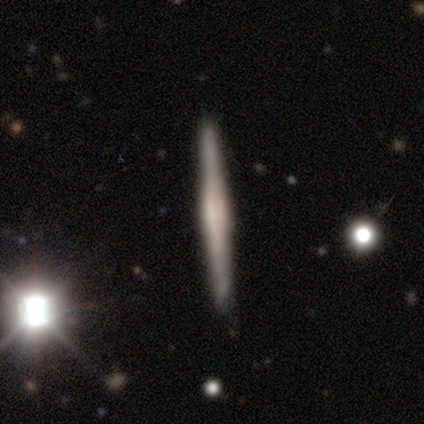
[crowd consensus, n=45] Q: Smooth or featured?
A: featured or disk (71%); runner-up: smooth (22%)
Q: Edge-on disk?
A: yes (97%); runner-up: no (3%)
Q: Edge-on bulge?
A: rounded (45%); runner-up: boxy (35%)
Q: Merging?
A: none (83%); runner-up: minor disturbance (14%)